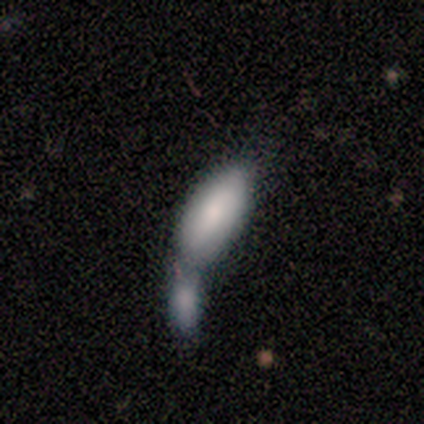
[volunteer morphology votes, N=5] This is clearly a smooth galaxy (100%). How rounded: clearly in between (80%). Merging: clearly merger (80%).